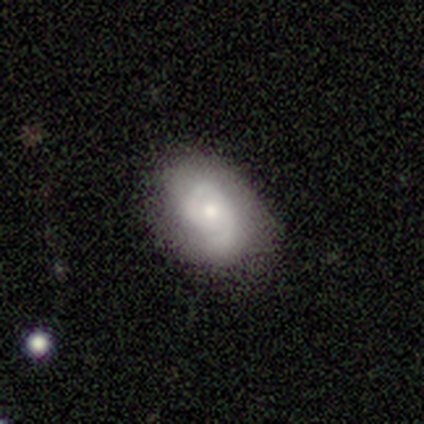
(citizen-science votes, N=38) Smooth or featured?
  - featured or disk: 66% *
  - smooth: 34%
  - star or artifact: 0%
Edge-on disk?
  - no: 100% *
  - yes: 0%
Bar?
  - no: 80% *
  - weak: 20%
  - strong: 0%
Spiral arms?
  - yes: 88% *
  - no: 12%
Spiral winding?
  - tight: 64% *
  - medium: 27%
  - loose: 9%
Spiral arm count?
  - 2: 50% *
  - 1: 36%
  - can't tell: 14%
  - 3: 0%
  - 4: 0%
  - more than 4: 0%
Bulge size?
  - moderate: 48% *
  - small: 44%
  - dominant: 4%
  - large: 4%
  - none: 0%
Merging?
  - none: 79% *
  - minor disturbance: 13%
  - major disturbance: 8%
  - merger: 0%